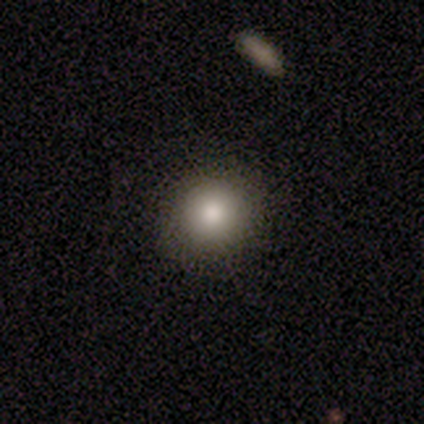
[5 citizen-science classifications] featured or disk 40% (tied), star or artifact 40% (tied), smooth 20%. Down the decision tree: edge-on disk — no (100%); bar — no (100%); spiral arms — no (100%); bulge size — moderate (100%); merging — none (100%).